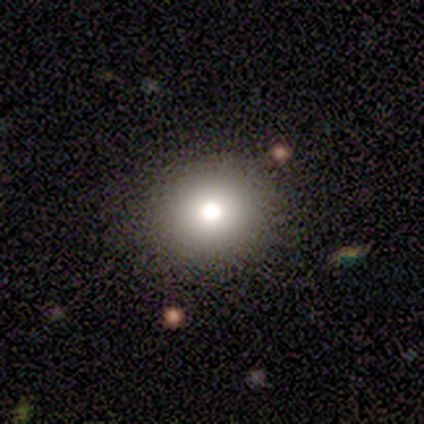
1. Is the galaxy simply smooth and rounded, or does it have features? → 80% smooth, 20% featured or disk, 0% star or artifact.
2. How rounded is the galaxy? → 100% round, 0% in between, 0% cigar-shaped.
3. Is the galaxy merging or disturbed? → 100% none, 0% minor disturbance, 0% major disturbance, 0% merger.